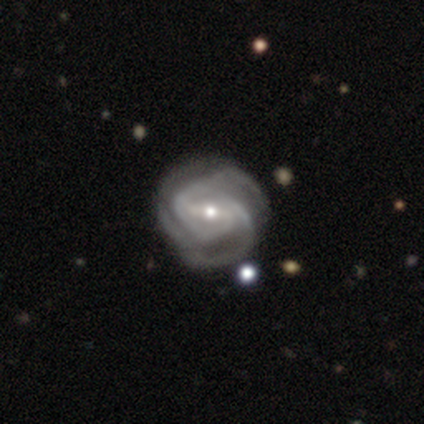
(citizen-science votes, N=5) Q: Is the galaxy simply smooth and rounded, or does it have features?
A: featured or disk — 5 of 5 (100%).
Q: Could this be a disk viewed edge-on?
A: no — 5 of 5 (100%).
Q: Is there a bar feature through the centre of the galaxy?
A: strong — 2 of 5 (40%, tied with weak).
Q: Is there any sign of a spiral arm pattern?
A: yes — 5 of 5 (100%).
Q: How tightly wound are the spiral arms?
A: tight — 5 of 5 (100%).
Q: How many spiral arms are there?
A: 2 — 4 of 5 (80%).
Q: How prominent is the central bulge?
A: small — 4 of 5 (80%).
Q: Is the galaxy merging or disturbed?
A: none — 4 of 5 (80%).